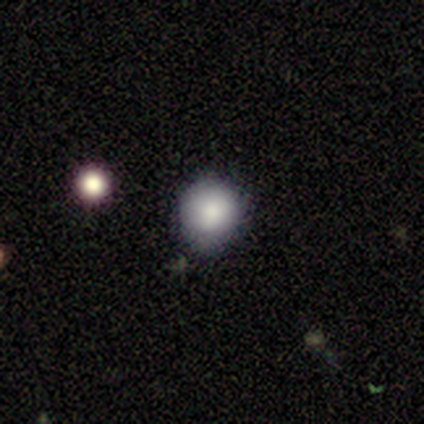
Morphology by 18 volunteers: smooth-or-featured: smooth: 78% | star or artifact: 17% | featured or disk: 6%
  how-rounded: round: 86% | in between: 14% | cigar-shaped: 0%
  merging: none: 47% | minor disturbance: 40% | major disturbance: 7% | merger: 7%